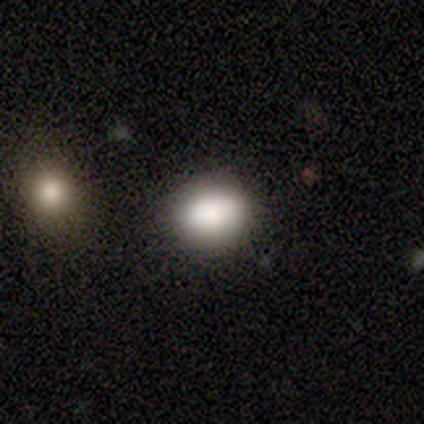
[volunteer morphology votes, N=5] Overall: smooth (100%). How rounded: round (60%; in between 40%). Merging: none (100%).